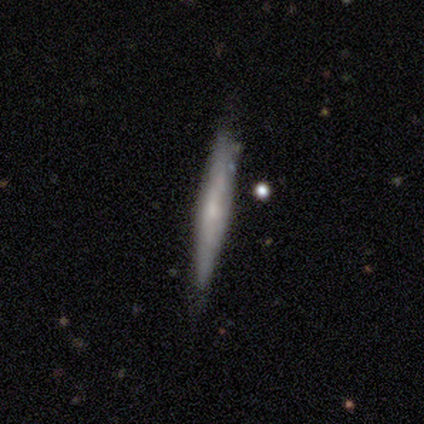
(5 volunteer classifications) Volunteers were most divided on "smooth or featured": featured or disk: 60%, smooth: 40%, star or artifact: 0%. More confident: edge-on disk — yes (100%); merging — none (80%); edge-on bulge — rounded (67%).